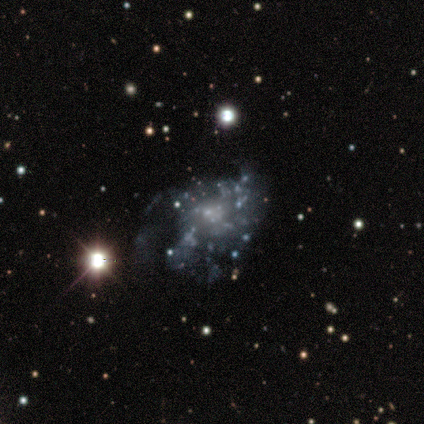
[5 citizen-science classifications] Morphology: type=featured or disk (40%, tied with star or artifact); edge-on=no (100%); bar=no (100%); spiral arms=no (100%); bulge=none (100%); merging=major disturbance (100%).